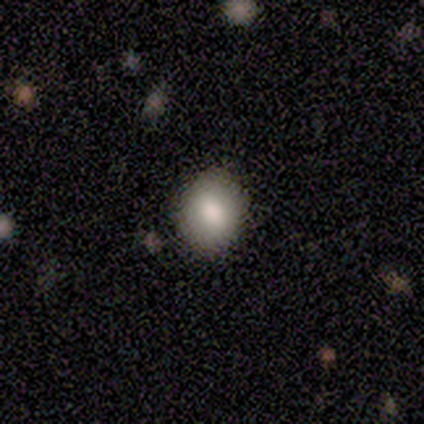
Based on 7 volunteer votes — Overall: smooth (100%). How rounded: in between (57%; round 43%). Merging: none (86%).